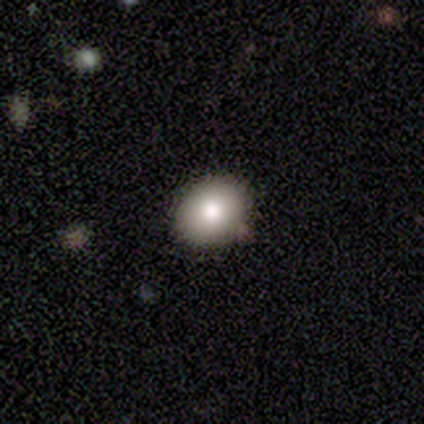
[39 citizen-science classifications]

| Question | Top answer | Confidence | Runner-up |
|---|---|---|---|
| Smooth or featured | smooth | 79% | featured or disk (18%) |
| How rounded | round | 71% | in between (29%) |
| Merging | none | 89% | minor disturbance (8%) |